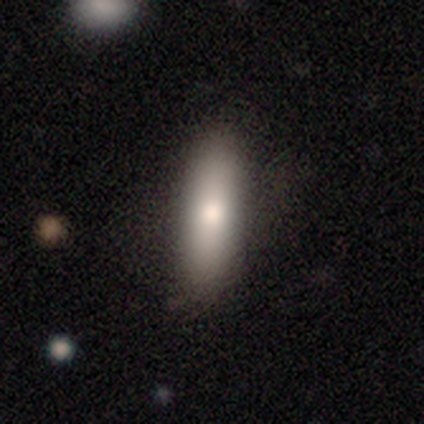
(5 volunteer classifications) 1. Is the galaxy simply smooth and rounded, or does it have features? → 80% smooth, 20% featured or disk, 0% star or artifact.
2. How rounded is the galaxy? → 75% cigar-shaped, 25% in between, 0% round.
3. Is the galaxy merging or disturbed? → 80% none, 20% minor disturbance, 0% major disturbance, 0% merger.